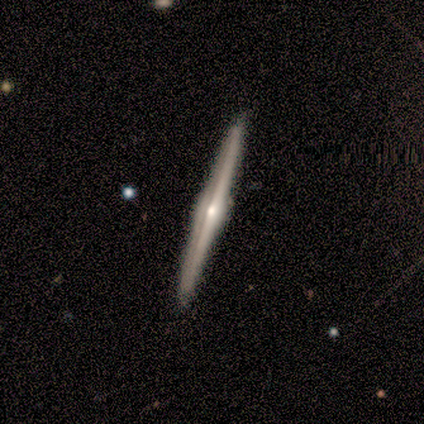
featured or disk 91%, star or artifact 9%, smooth 0%. Down the decision tree: edge-on disk — yes (100%); edge-on bulge — rounded (90%); merging — none (90%).